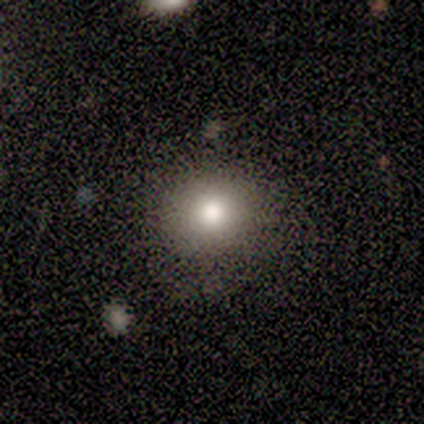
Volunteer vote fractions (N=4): Smooth or featured? featured or disk (50%)
Edge-on disk? yes (50%, tied with no)
Edge-on bulge? rounded (100%)
Merging? none (67%)